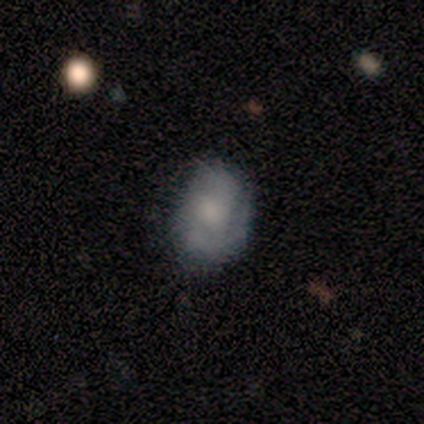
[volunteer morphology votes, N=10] Smooth or featured: featured or disk — 60% (smooth — 40%)
Edge-on disk: no — 83% (yes — 17%)
Bar: no — 60% (weak — 40%)
Spiral arms: yes — 60% (no — 40%)
Spiral winding: medium — 67% (tight — 33%)
Spiral arm count: can't tell — 67% (2 — 33%)
Bulge size: large — 40% (tied with moderate — 40%)
Merging: none — 50% (minor disturbance — 40%)